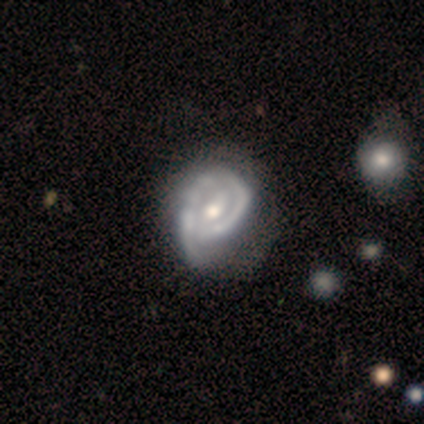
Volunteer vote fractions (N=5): A featured or disk galaxy (100%) with no bar (60%), no spiral arms (60%) and a moderate central bulge (60%).

Vote fractions:
- Smooth or featured? featured or disk: 100% / smooth: 0% / star or artifact: 0%
- Edge-on disk? no: 100% / yes: 0%
- Bar? no: 60% / weak: 40% / strong: 0%
- Spiral arms? no: 60% / yes: 40%
- Bulge size? moderate: 60% / small: 40% / dominant: 0% / large: 0% / none: 0%
- Merging? none: 60% / major disturbance: 40% / minor disturbance: 0% / merger: 0%